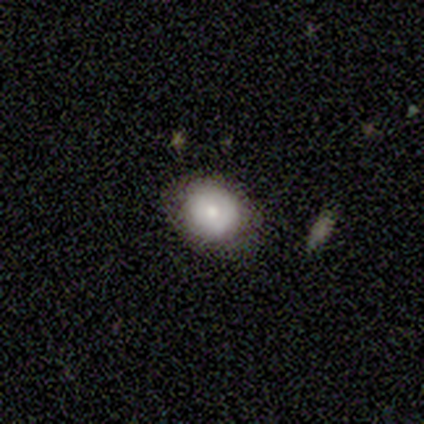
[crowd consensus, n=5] Volunteers were most divided on "how rounded": round: 60%, in between: 40%, cigar-shaped: 0%. More confident: smooth or featured — smooth (100%); merging — none (100%).